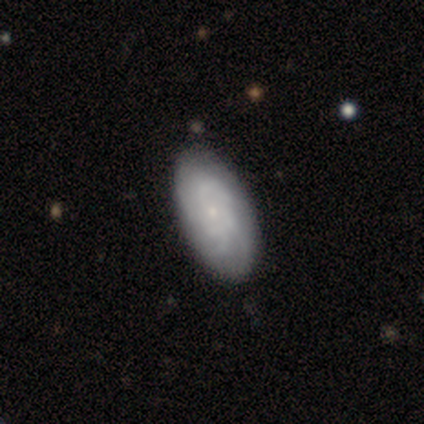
A featured or disk galaxy (72%) with no bar (89%), tight (49%) spiral arms (100%) and a small central bulge (100%).

Vote fractions:
- Smooth or featured? featured or disk: 72% / smooth: 28% / star or artifact: 0%
- Edge-on disk? no: 97% / yes: 3%
- Bar? no: 89% / weak: 9% / strong: 3%
- Spiral arms? yes: 100% / no: 0%
- Spiral winding? tight: 49% / medium: 43% / loose: 9%
- Spiral arm count? can't tell: 51% / 4: 29% / more than 4: 14% / 2: 3% / 3: 3% / 1: 0%
- Bulge size? small: 100% / dominant: 0% / large: 0% / moderate: 0% / none: 0%
- Merging? none: 90% / minor disturbance: 8% / merger: 2% / major disturbance: 0%